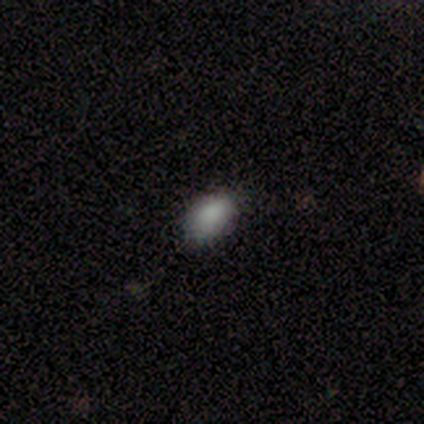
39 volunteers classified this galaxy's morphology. smooth-or-featured: smooth: 85% | featured or disk: 8% | star or artifact: 8%
  how-rounded: in between: 85% | round: 15% | cigar-shaped: 0%
  merging: none: 81% | minor disturbance: 14% | major disturbance: 6% | merger: 0%